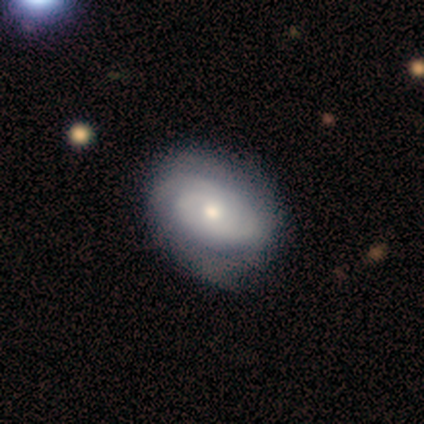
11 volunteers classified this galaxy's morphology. Q: Smooth or featured?
A: featured or disk (73%); runner-up: smooth (27%)
Q: Edge-on disk?
A: no (100%)
Q: Bar?
A: no (88%); runner-up: weak (12%)
Q: Spiral arms?
A: yes (100%)
Q: Spiral winding?
A: tight (75%); runner-up: medium (12%)
Q: Spiral arm count?
A: 2 (50%); runner-up: can't tell (38%)
Q: Bulge size?
A: moderate (50%); runner-up: large (25%)
Q: Merging?
A: none (82%); runner-up: minor disturbance (18%)